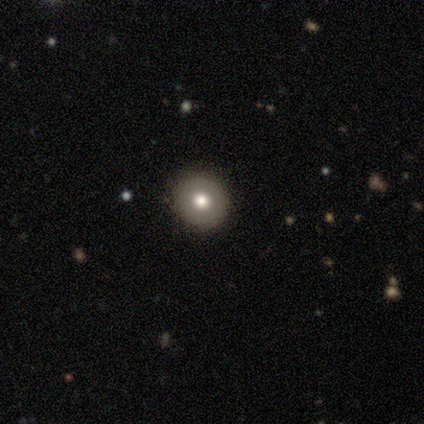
Overall: smooth (60%; featured or disk 40%). How rounded: round (100%). Merging: none (100%).